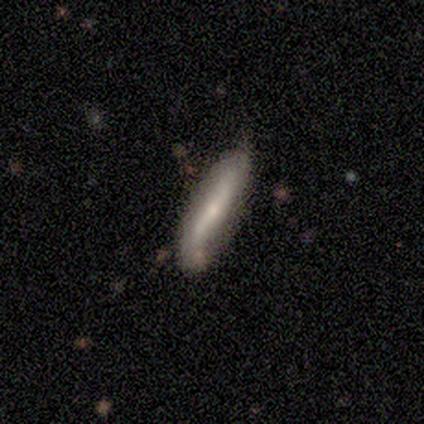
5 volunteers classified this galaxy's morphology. smooth_or_featured: smooth (p=0.60) [alt: featured or disk p=0.40]
how_rounded: cigar-shaped (p=1.00)
merging: none (p=1.00)